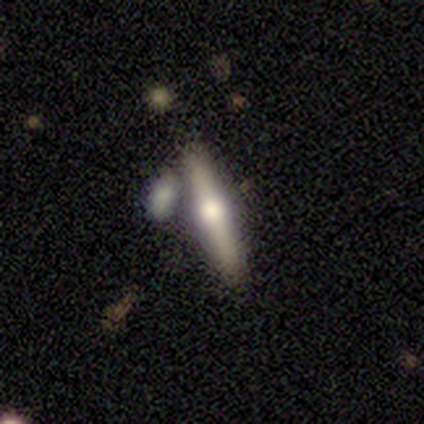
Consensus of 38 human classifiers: Smooth or featured? 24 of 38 (63%) said featured or disk. Edge-on disk? 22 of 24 (92%) said yes. Edge-on bulge? 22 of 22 (100%) said rounded. Merging? 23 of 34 (68%) said none.